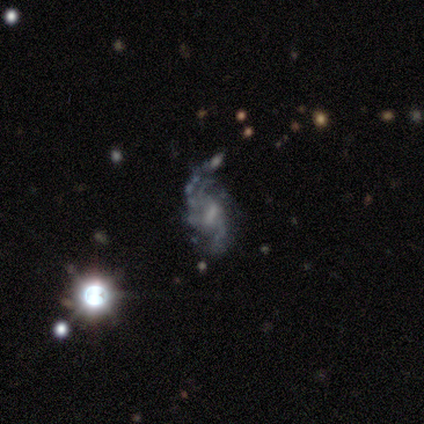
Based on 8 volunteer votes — Q: Smooth or featured?
A: featured or disk (100%)
Q: Edge-on disk?
A: no (100%)
Q: Bar?
A: weak (50%); runner-up: strong (25%)
Q: Spiral arms?
A: yes (100%)
Q: Spiral winding?
A: loose (62%); runner-up: medium (25%)
Q: Spiral arm count?
A: 2 (62%); runner-up: 3 (25%)
Q: Bulge size?
A: small (38%); tied with: none (38%)
Q: Merging?
A: none (62%); runner-up: minor disturbance (25%)